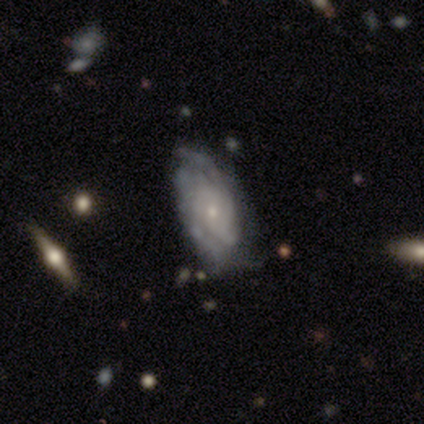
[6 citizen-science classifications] This is clearly a featured or disk galaxy (100%). It is clearly not viewed edge-on (83%). Bar: likely no (60%). Spiral arm pattern: clearly yes (100%). Spiral arm count: clearly can't tell (80%). Spiral winding: likely tight (60%). Central bulge: clearly small (80%). Merging: possibly none (50%, tied with minor disturbance).